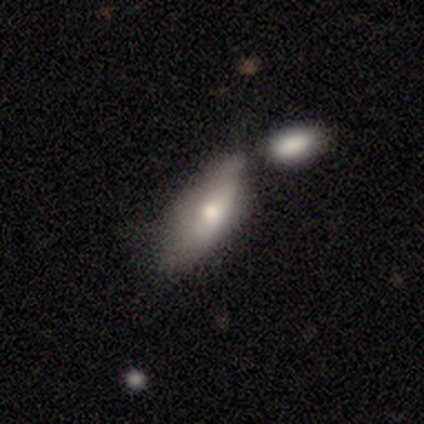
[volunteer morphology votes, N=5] smooth 100%, featured or disk 0%, star or artifact 0%. Down the decision tree: how rounded — in between (80%); merging — minor disturbance (60%).